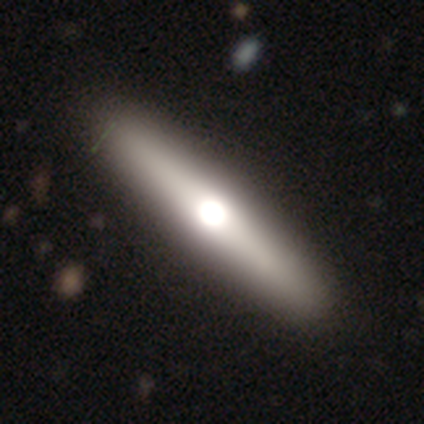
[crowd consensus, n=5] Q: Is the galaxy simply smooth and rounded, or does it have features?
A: featured or disk — 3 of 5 (60%).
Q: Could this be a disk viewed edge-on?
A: yes — 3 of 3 (100%).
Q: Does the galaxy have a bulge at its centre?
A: rounded — 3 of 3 (100%).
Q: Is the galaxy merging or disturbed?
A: none — 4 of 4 (100%).